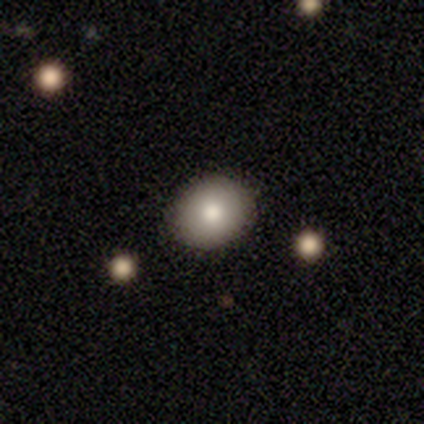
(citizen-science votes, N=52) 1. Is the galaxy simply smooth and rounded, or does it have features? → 63% smooth, 29% star or artifact, 8% featured or disk.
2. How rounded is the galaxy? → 64% round, 36% in between, 0% cigar-shaped.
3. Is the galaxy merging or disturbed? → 73% none, 3% merger, 0% minor disturbance, 0% major disturbance.